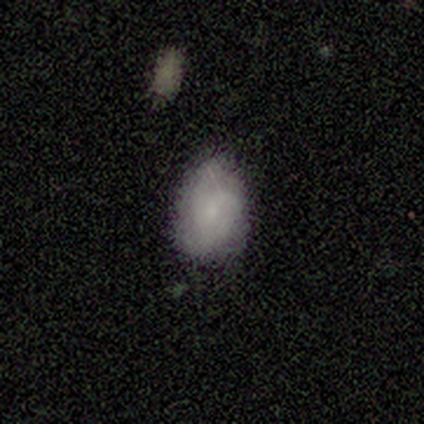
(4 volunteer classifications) Q: Smooth or featured?
A: smooth (100%)
Q: How rounded?
A: in between (75%); runner-up: round (25%)
Q: Merging?
A: none (100%)